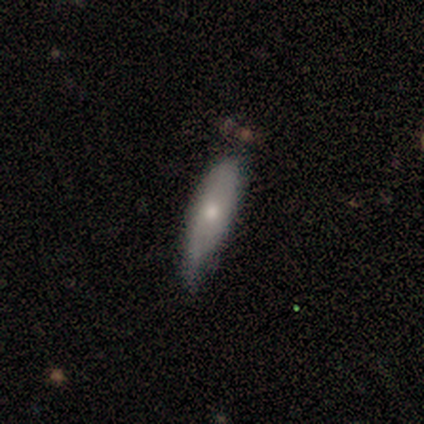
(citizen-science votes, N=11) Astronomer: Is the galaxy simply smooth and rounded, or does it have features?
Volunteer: smooth — 91%.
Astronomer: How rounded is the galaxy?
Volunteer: in between — 50%, tied with cigar-shaped at 50%.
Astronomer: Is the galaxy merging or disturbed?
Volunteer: none — 45%, tied with minor disturbance at 45%.